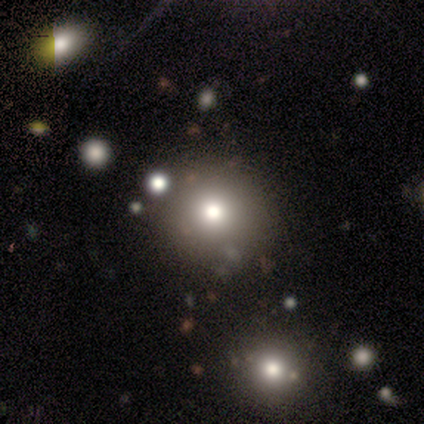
Q: Smooth or featured?
A: smooth (60%); runner-up: star or artifact (40%)
Q: How rounded?
A: round (100%)
Q: Merging?
A: none (100%)